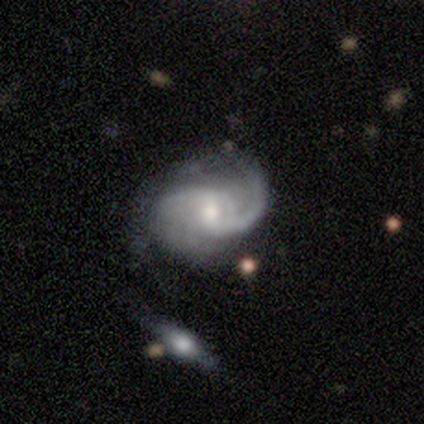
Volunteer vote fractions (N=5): Smooth or featured? featured or disk (100%)
Edge-on disk? no (80%)
Bar? no (75%)
Spiral arms? yes (100%)
Spiral winding? medium (50%)
Spiral arm count? 2 (50%)
Bulge size? moderate (50%, tied with small)
Merging? none (60%)